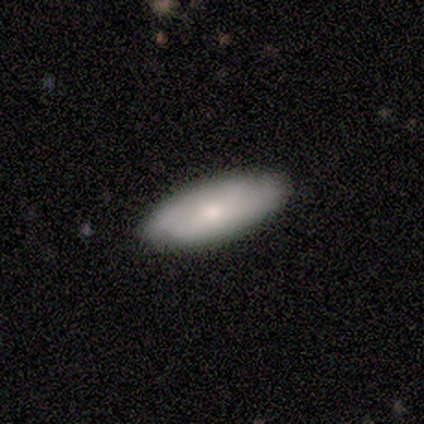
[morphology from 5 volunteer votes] Smooth or featured: smooth — 80% (featured or disk — 20%)
How rounded: in between — 100%
Merging: none — 60% (minor disturbance — 40%)